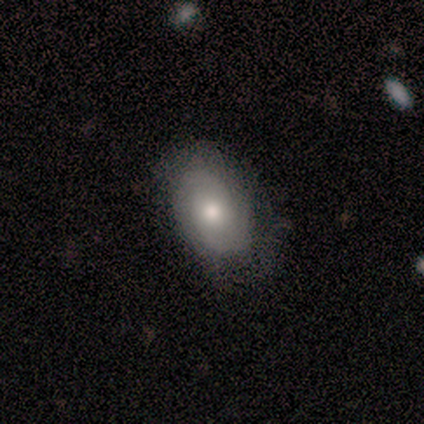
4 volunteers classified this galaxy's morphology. type=smooth (50%, tied with featured or disk); roundness=in between (100%); merging=minor disturbance (50%).